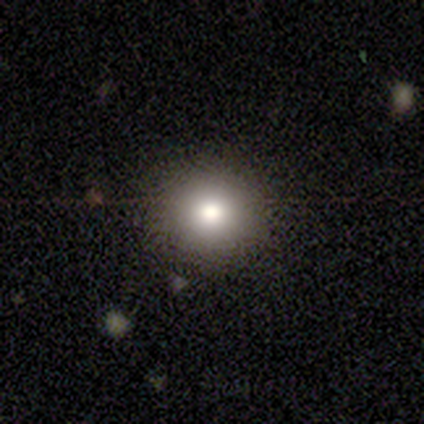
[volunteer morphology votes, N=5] A smooth galaxy with no disk features (80%) that is round (100%).

Vote fractions:
- Smooth or featured? smooth: 80% / star or artifact: 20% / featured or disk: 0%
- How rounded? round: 100% / in between: 0% / cigar-shaped: 0%
- Merging? none: 75% / minor disturbance: 25% / major disturbance: 0% / merger: 0%